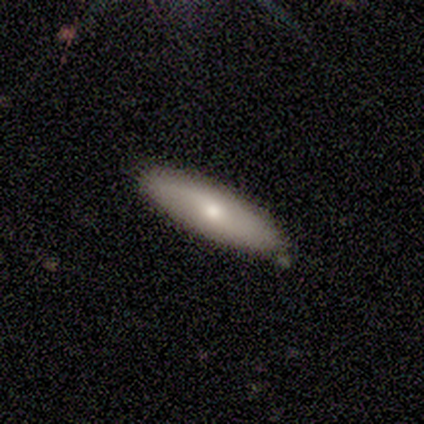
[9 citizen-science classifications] Morphology: type=featured or disk (56%); edge-on=no (80%); bar=no (75%); spiral arms=yes (50%, tied with no); winding=loose (100%); arm count=1 (50%, tied with 2); bulge=moderate (50%); merging=none (89%).